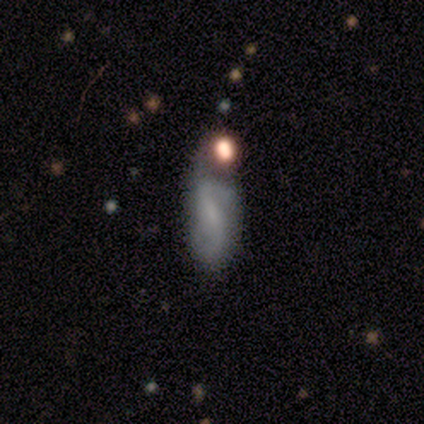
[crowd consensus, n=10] A featured or disk galaxy (70%) with a weak bar (43%), 2 (100%) medium (67%) spiral arms (86%) and a small central bulge (57%).

Vote fractions:
- Smooth or featured? featured or disk: 70% / smooth: 30% / star or artifact: 0%
- Edge-on disk? no: 100% / yes: 0%
- Bar? weak: 43% / strong: 29% / no: 29%
- Spiral arms? yes: 86% / no: 14%
- Spiral winding? medium: 67% / loose: 33% / tight: 0%
- Spiral arm count? 2: 100% / 1: 0% / 3: 0% / 4: 0% / more than 4: 0% / can't tell: 0%
- Bulge size? small: 57% / moderate: 29% / none: 14% / dominant: 0% / large: 0%
- Merging? minor disturbance: 40% / none: 20% / major disturbance: 20% / merger: 20%